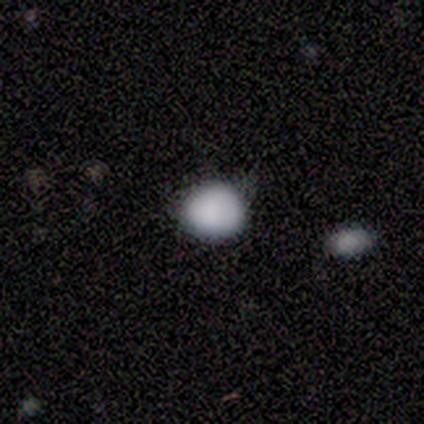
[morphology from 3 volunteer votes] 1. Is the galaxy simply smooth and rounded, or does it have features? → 67% smooth, 33% star or artifact, 0% featured or disk.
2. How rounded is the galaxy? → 100% round, 0% in between, 0% cigar-shaped.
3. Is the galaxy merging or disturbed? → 100% none, 0% minor disturbance, 0% major disturbance, 0% merger.